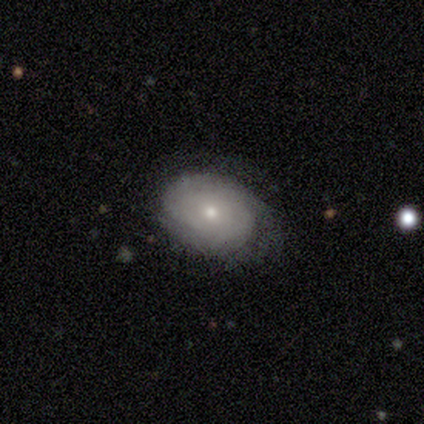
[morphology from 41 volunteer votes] type=featured or disk (76%); edge-on=no (100%); bar=no (84%); spiral arms=yes (84%); winding=tight (85%); arm count=can't tell (62%); bulge=small (81%); merging=none (71%).